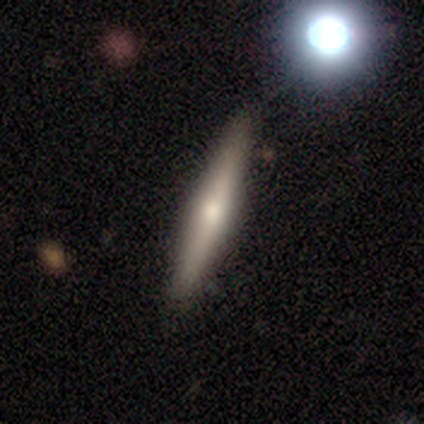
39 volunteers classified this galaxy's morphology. A featured or disk galaxy (49%) viewed edge-on (95%) with a rounded central bulge (89%).

Vote fractions:
- Smooth or featured? featured or disk: 49% / smooth: 44% / star or artifact: 8%
- Edge-on disk? yes: 95% / no: 5%
- Edge-on bulge? rounded: 89% / boxy: 6% / none: 6%
- Merging? none: 89% / minor disturbance: 6% / major disturbance: 3% / merger: 3%